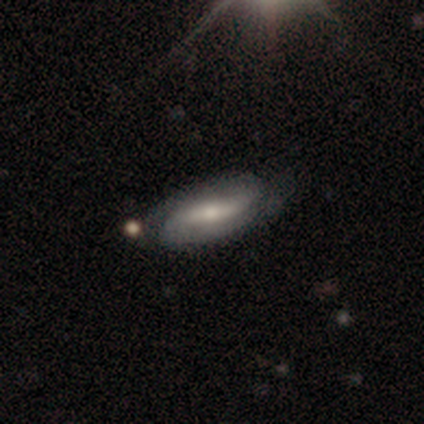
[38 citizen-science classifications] smooth-or-featured: featured or disk: 66% | smooth: 32% | star or artifact: 3%
  disk-edge-on: no: 84% | yes: 16%
    bar: weak: 52% | strong: 29% | no: 19%
    has-spiral-arms: yes: 76% | no: 24%
      spiral-winding: medium: 50% | tight: 31% | loose: 19%
      spiral-arm-count: 2: 81% | can't tell: 12% | 1: 6% | 3: 0% | 4: 0% | more than 4: 0%
    bulge-size: small: 48% | moderate: 43% | none: 10% | dominant: 0% | large: 0%
  merging: none: 54% | minor disturbance: 35% | major disturbance: 8% | merger: 3%